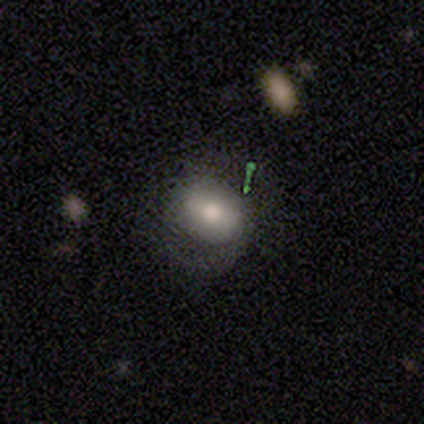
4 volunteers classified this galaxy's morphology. This appears to be a smooth galaxy with no disk features (50%) that is round (50%, tied with in between). Merging: none (100%).